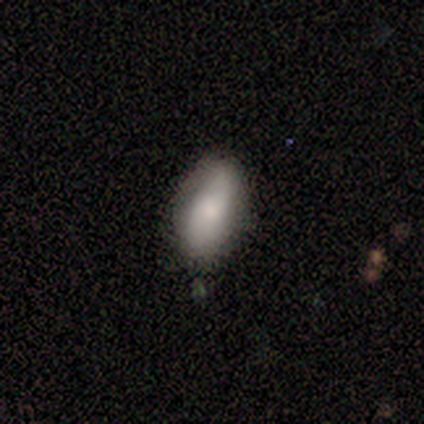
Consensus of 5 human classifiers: Smooth or featured? smooth (100%)
How rounded? in between (80%)
Merging? none (80%)